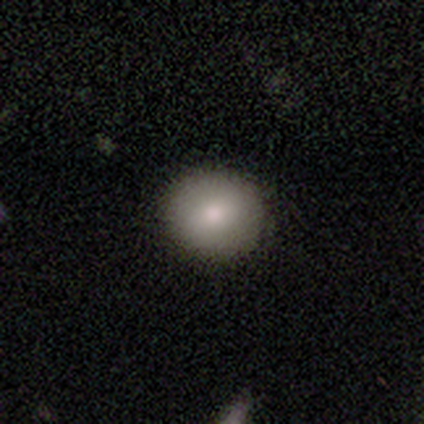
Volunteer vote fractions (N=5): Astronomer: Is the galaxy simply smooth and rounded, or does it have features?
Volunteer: smooth — 40%, tied with featured or disk at 40%.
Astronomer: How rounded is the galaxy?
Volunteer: round — 50%, tied with in between at 50%.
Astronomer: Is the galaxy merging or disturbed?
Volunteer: none — 100%.